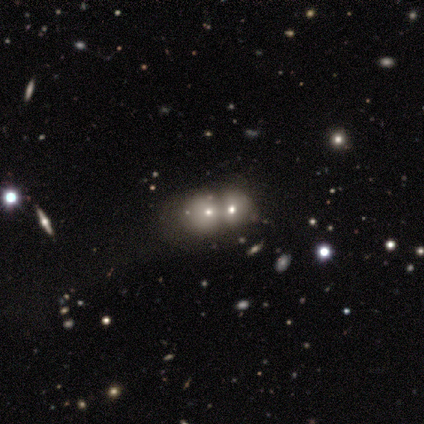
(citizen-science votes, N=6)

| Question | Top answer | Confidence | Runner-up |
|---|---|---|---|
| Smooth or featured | star or artifact | 67% | featured or disk (33%) |